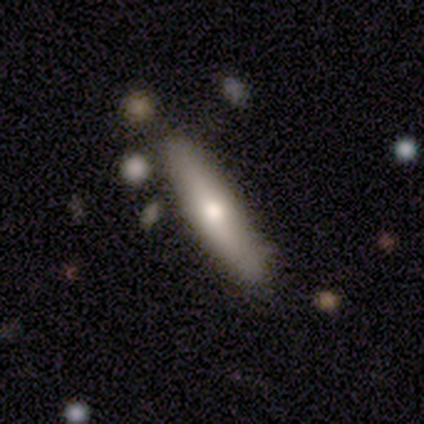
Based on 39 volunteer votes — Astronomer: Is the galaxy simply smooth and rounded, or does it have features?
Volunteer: smooth — 56% (runner-up: featured or disk, 41%).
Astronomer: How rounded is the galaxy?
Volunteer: cigar-shaped — 73%.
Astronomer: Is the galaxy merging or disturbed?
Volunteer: none — 84%.